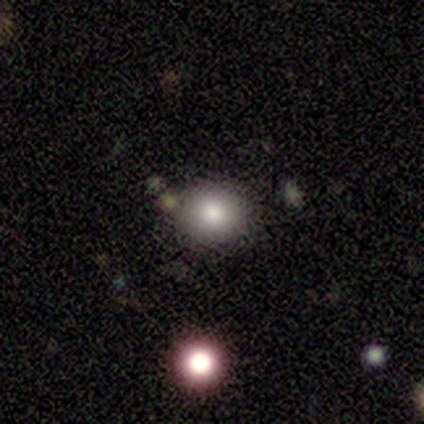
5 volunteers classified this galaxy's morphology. Volunteers were most divided on "how rounded": in between: 67%, round: 33%, cigar-shaped: 0%. More confident: merging — none (75%); smooth or featured — smooth (60%).